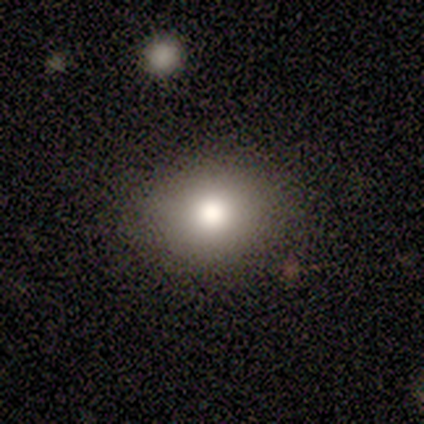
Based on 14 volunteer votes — Overall: smooth (93%). How rounded: in between (54%; round 46%). Merging: none (86%).